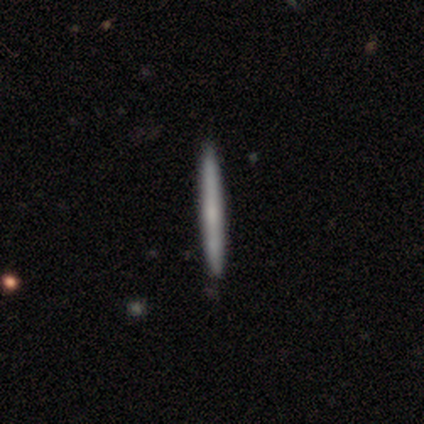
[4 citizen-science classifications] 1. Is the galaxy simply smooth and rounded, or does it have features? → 75% featured or disk, 25% smooth, 0% star or artifact.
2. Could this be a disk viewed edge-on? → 100% yes, 0% no.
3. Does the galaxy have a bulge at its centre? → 67% none, 33% rounded, 0% boxy.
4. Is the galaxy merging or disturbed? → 100% none, 0% minor disturbance, 0% major disturbance, 0% merger.